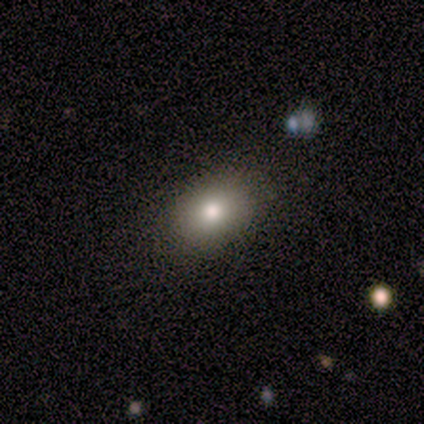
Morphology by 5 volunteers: This is clearly a smooth galaxy (100%). How rounded: clearly in between (100%). Merging: clearly none (80%).